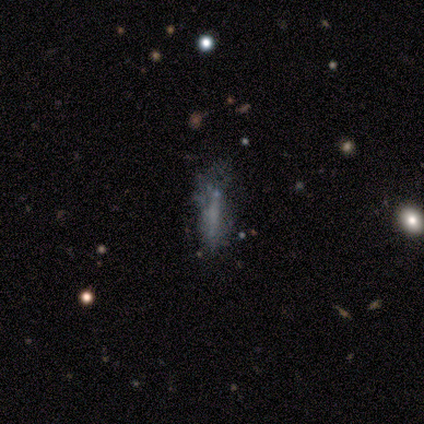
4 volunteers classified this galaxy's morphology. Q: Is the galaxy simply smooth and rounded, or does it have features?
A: smooth — 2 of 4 (50%).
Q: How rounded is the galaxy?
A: cigar-shaped — 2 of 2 (100%).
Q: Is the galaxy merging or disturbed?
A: none — 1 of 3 (33%, tied with minor disturbance and major disturbance).